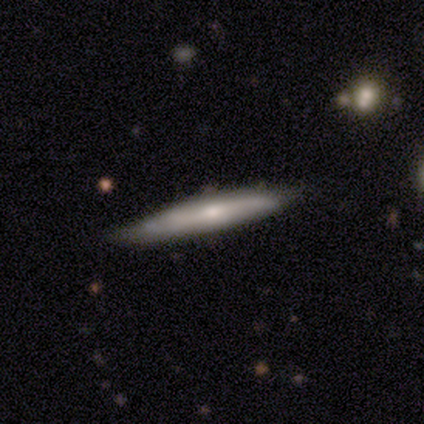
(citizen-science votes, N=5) This is likely a smooth galaxy (60%). How rounded: clearly cigar-shaped (100%). Merging: likely none (75%).